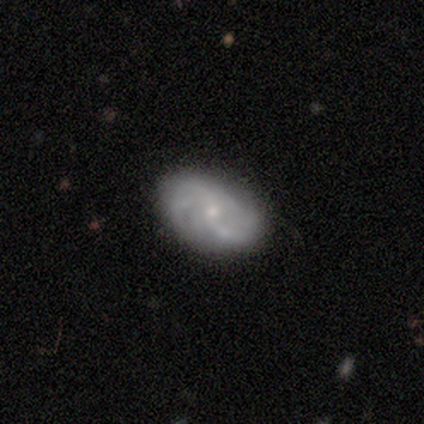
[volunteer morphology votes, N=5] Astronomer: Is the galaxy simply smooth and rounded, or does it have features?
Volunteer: featured or disk — 80%.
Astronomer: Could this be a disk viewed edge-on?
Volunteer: no — 100%.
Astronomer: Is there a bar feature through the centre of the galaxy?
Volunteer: no — 75%.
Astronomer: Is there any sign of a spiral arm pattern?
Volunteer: yes — 75%.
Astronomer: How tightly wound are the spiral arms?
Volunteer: loose — 67%.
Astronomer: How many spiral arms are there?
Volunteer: can't tell — 67%.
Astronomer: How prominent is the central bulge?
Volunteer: moderate — 75%.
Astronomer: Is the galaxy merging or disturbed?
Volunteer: none — 80%.